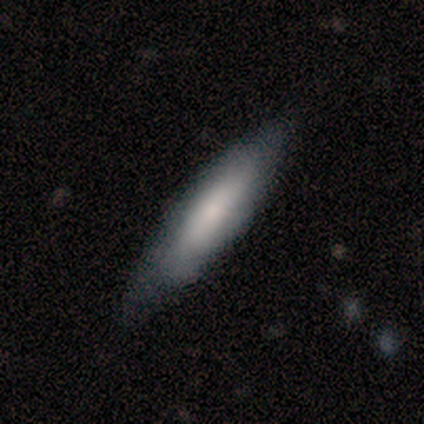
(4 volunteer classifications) This appears to be a smooth galaxy with no disk features (100%) that is cigar-shaped (100%). Merging: none (100%).